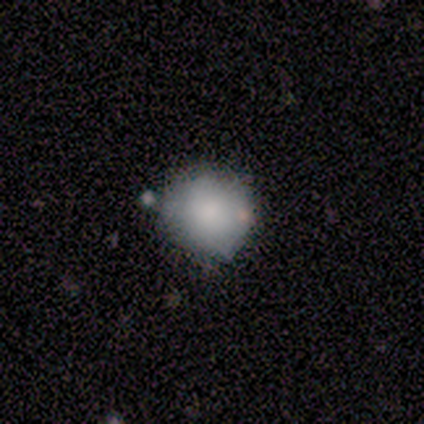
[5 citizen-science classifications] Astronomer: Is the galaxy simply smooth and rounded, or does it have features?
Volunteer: smooth — 80%.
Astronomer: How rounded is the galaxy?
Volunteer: round — 75%.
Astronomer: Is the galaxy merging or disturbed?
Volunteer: none — 75%.